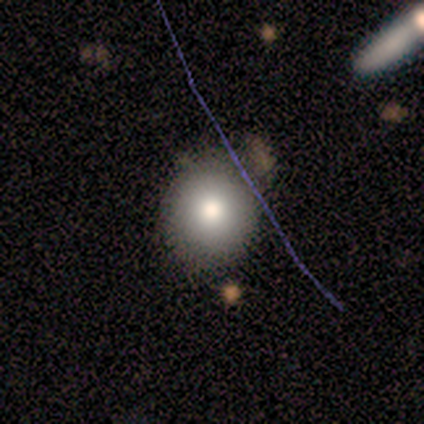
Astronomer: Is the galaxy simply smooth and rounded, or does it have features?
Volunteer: smooth — 60% (runner-up: featured or disk, 40%).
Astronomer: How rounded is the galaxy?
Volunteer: round — 100%.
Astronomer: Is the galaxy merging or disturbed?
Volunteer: none — 100%.